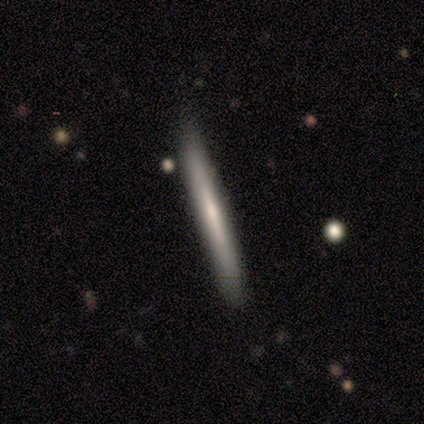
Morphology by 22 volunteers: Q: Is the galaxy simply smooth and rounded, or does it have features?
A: featured or disk — 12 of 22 (55%).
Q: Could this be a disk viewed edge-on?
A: yes — 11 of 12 (92%).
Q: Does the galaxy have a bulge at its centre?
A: none — 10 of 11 (91%).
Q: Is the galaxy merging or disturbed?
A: none — 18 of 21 (86%).